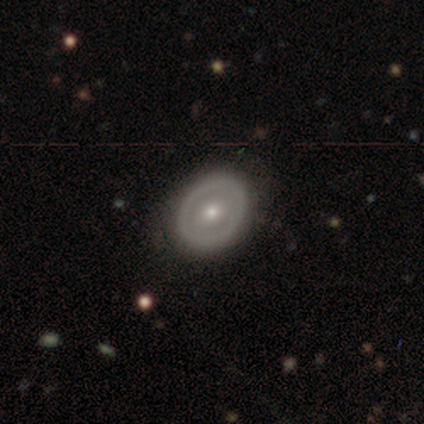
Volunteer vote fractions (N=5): Smooth or featured? smooth (60%)
How rounded? in between (67%)
Merging? none (80%)